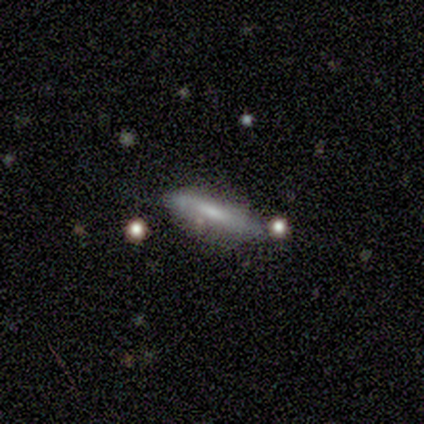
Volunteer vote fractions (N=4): Smooth or featured?
  - smooth: 75% *
  - featured or disk: 25%
  - star or artifact: 0%
How rounded?
  - cigar-shaped: 67% *
  - in between: 33%
  - round: 0%
Merging?
  - none: 50% * (tied)
  - minor disturbance: 50% * (tied)
  - major disturbance: 0%
  - merger: 0%